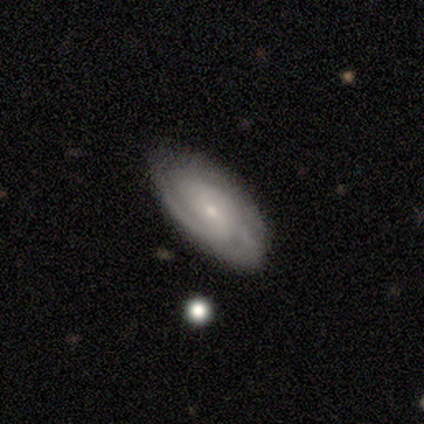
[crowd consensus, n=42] smooth_or_featured: featured or disk (p=0.69) [alt: smooth p=0.19]
disk_edge_on: no (p=0.97) [alt: yes p=0.03]
bar: no (p=0.61) [alt: weak p=0.39]
has_spiral_arms: yes (p=0.89) [alt: no p=0.11]
spiral_winding: medium (p=0.52) [alt: tight p=0.48]
spiral_arm_count: can't tell (p=0.36) [alt: 2 p=0.32]
bulge_size: small (p=0.64) [alt: moderate p=0.32]
merging: none (p=0.68) [alt: minor disturbance p=0.27]